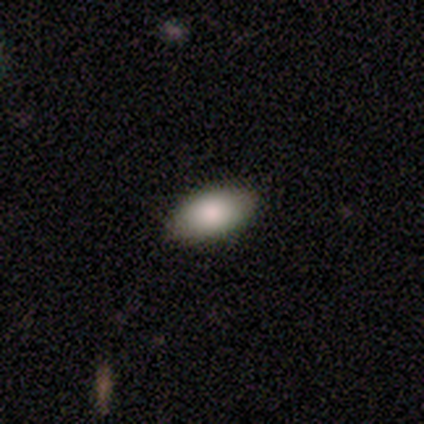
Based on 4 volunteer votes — Morphology: type=smooth (100%); roundness=in between (100%); merging=none (75%).